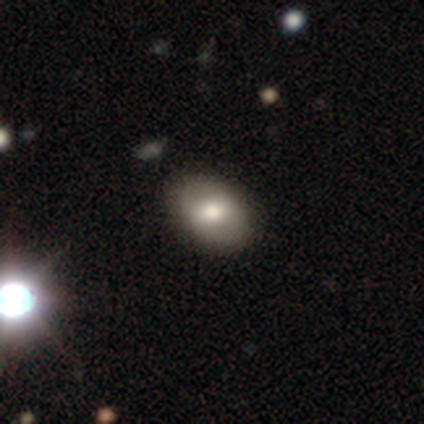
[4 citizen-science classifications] This appears to be a smooth galaxy with no disk features (75%) that is in between round and cigar-shaped (100%). Merging: none (50%).